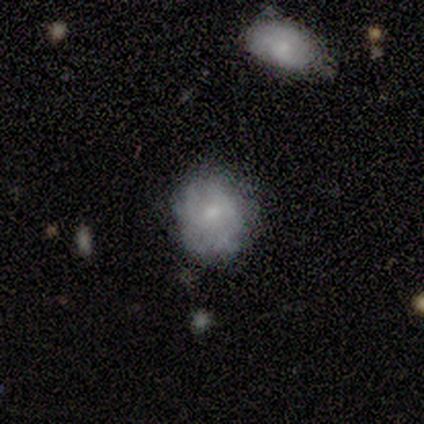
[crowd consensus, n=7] smooth_or_featured: featured or disk (p=0.57) [alt: smooth p=0.29]
disk_edge_on: no (p=0.75) [alt: yes p=0.25]
bar: no (p=1.00)
has_spiral_arms: no (p=0.67) [alt: yes p=0.33]
bulge_size: small (p=0.67) [alt: none p=0.33]
merging: none (p=0.50) [tied with: minor disturbance p=0.50]